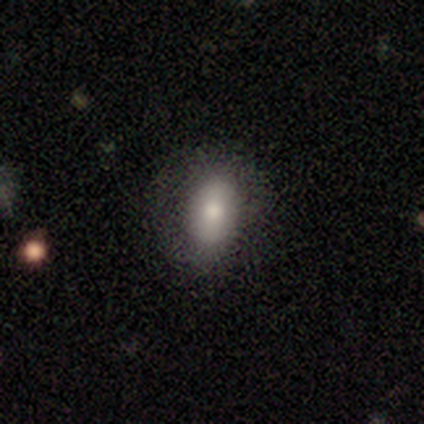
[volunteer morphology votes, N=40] This is likely a smooth galaxy (75%). How rounded: likely in between (73%). Merging: clearly none (89%).